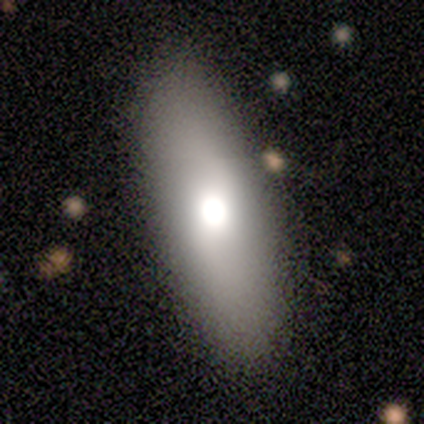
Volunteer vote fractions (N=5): Smooth or featured? smooth (100%)
How rounded? in between (80%)
Merging? none (60%)